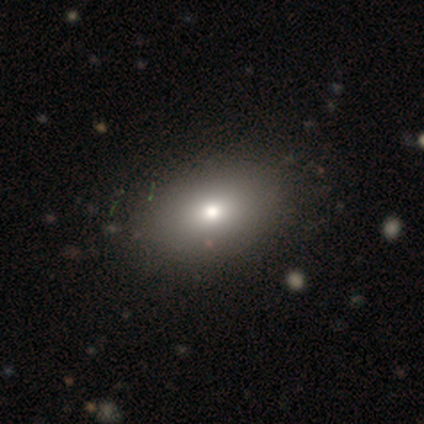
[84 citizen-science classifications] Overall: smooth (79%). How rounded: in between (86%). Merging: none (83%).